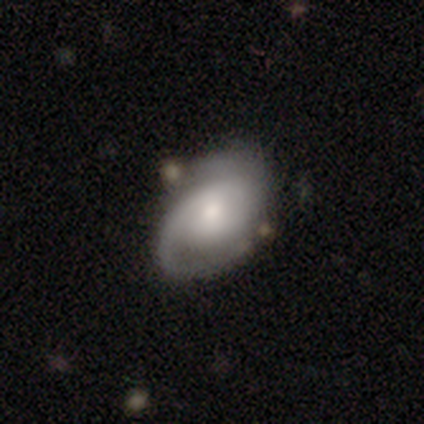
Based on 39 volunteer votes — featured or disk 72%, smooth 23%, star or artifact 5%. Down the decision tree: edge-on disk — no (89%); bar — no (48%); spiral arms — yes (80%); spiral arm count — 2 (70%); spiral winding — medium (55%); bulge size — moderate (48%); merging — none (70%).